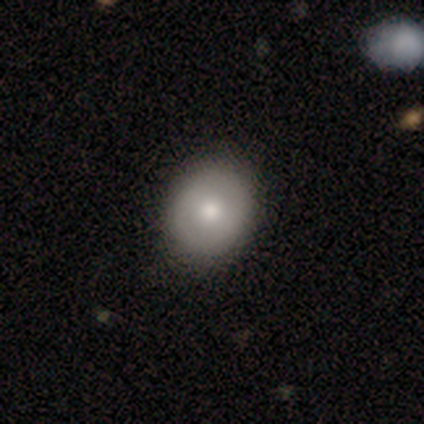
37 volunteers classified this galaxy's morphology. Smooth or featured? smooth (76%)
How rounded? round (68%)
Merging? none (66%)